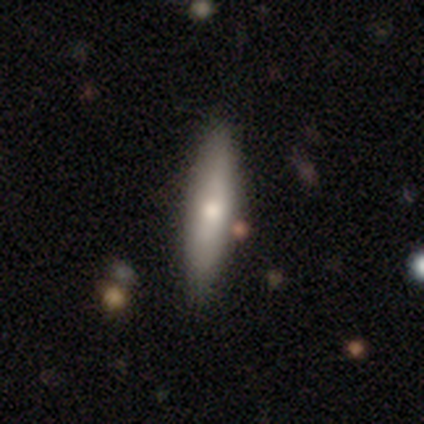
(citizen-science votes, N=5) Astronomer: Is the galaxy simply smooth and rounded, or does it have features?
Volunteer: smooth — 60% (runner-up: featured or disk, 40%).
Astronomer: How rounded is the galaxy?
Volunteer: cigar-shaped — 100%.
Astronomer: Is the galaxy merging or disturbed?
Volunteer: none — 60% (runner-up: minor disturbance, 40%).